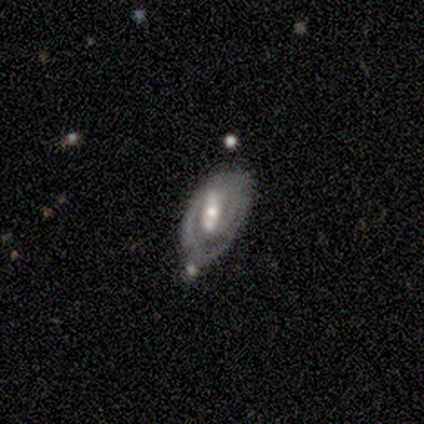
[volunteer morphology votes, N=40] featured or disk 95%, smooth 2%, star or artifact 2%. Down the decision tree: edge-on disk — no (100%); bar — strong (61%); spiral arms — yes (84%); spiral arm count — 2 (62%); spiral winding — tight (47%, tied with medium); bulge size — moderate (76%); merging — none (49%).